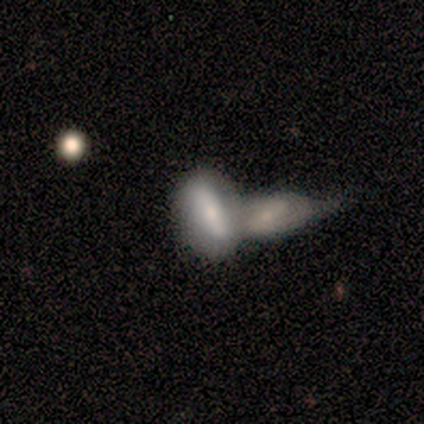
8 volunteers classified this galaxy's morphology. Smooth or featured? smooth (50%, tied with featured or disk)
How rounded? in between (100%)
Merging? merger (75%)